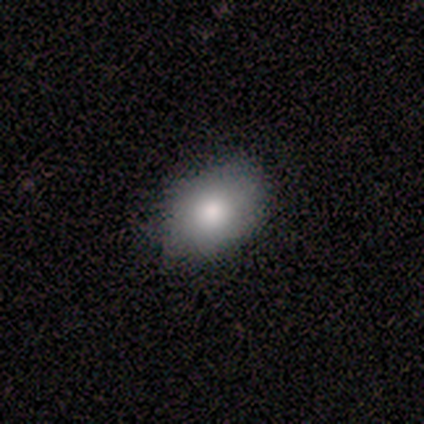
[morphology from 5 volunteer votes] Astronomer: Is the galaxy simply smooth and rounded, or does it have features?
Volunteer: smooth — 100%.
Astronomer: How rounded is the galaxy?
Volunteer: in between — 100%.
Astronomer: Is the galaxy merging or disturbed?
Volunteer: none — 80%.